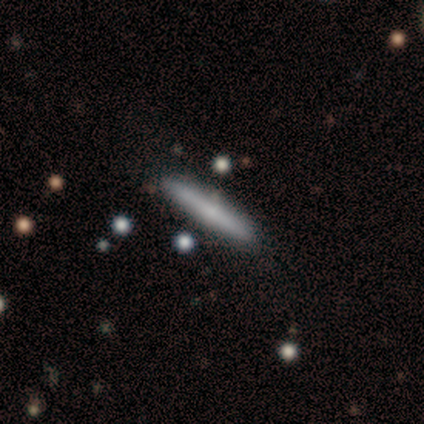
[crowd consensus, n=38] smooth_or_featured: smooth (p=0.61) [alt: featured or disk p=0.26]
how_rounded: cigar-shaped (p=0.96) [alt: in between p=0.04]
merging: none (p=0.82) [alt: minor disturbance p=0.09]